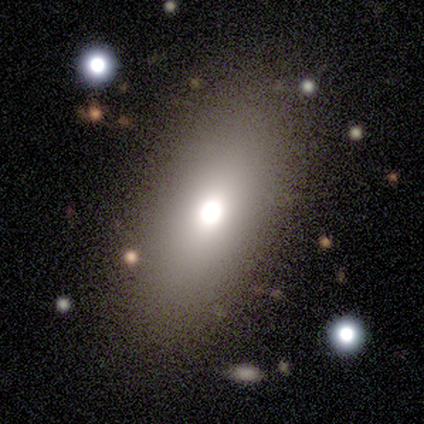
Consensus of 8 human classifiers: smooth_or_featured: smooth (p=0.75) [alt: featured or disk p=0.25]
how_rounded: in between (p=0.67) [alt: round p=0.17]
merging: none (p=0.88) [alt: minor disturbance p=0.12]